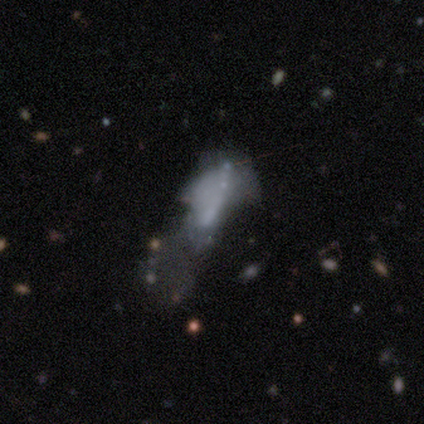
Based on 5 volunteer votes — Smooth or featured? featured or disk (80%)
Edge-on disk? no (100%)
Bar? no (50%)
Spiral arms? no (100%)
Bulge size? none (75%)
Merging? major disturbance (80%)